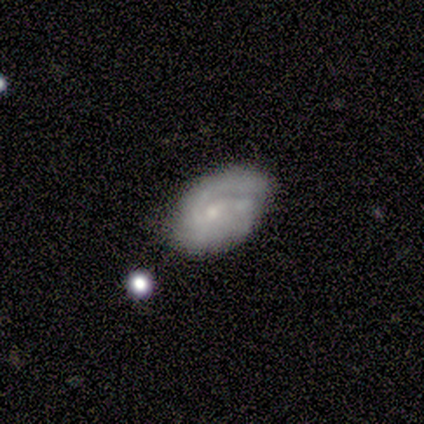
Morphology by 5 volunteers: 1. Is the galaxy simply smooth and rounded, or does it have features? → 80% featured or disk, 20% smooth, 0% star or artifact.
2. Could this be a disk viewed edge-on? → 100% no, 0% yes.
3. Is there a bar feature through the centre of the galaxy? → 50% weak (tied), 50% no (tied), 0% strong.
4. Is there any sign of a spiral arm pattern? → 100% yes, 0% no.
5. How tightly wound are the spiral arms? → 50% medium, 25% tight, 25% loose.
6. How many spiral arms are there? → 75% 2, 25% 3, 0% 1, 0% 4, 0% more than 4, 0% can't tell.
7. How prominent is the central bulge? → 100% small, 0% dominant, 0% large, 0% moderate, 0% none.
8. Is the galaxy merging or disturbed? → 80% none, 20% minor disturbance, 0% major disturbance, 0% merger.